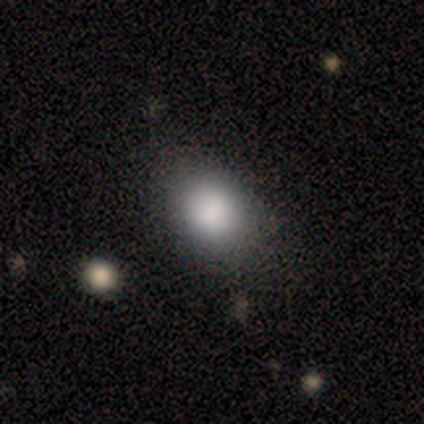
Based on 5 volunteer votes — smooth 60%, featured or disk 40%, star or artifact 0%. Down the decision tree: how rounded — in between (100%); merging — none (60%).